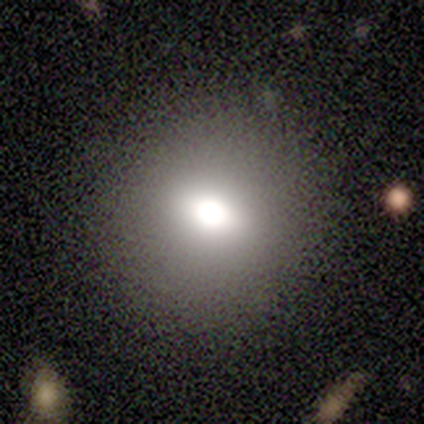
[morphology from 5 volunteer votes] Smooth or featured: featured or disk — 40% (tied with star or artifact — 40%)
Edge-on disk: no — 100%
Bar: no — 100%
Spiral arms: no — 100%
Bulge size: large — 50% (tied with moderate — 50%)
Merging: none — 100%